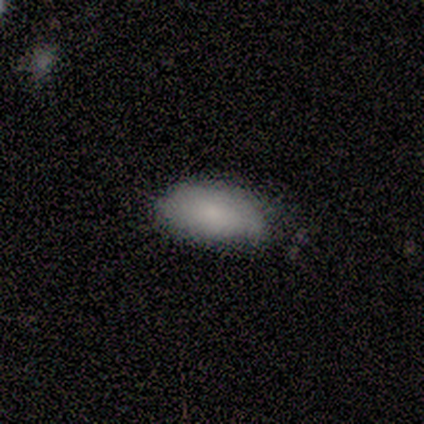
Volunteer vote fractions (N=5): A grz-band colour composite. It shows a smooth galaxy with no disk features (80%) that is in between round and cigar-shaped (100%). Merging: none (40%, tied with minor disturbance).